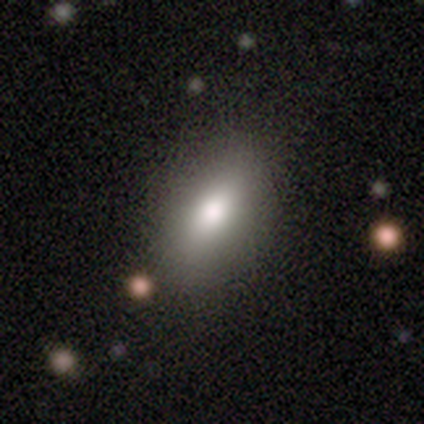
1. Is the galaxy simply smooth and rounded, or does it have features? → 82% smooth, 9% featured or disk, 9% star or artifact.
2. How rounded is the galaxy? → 81% in between, 17% cigar-shaped, 3% round.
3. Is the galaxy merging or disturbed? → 80% none, 12% minor disturbance, 6% major disturbance, 1% merger.